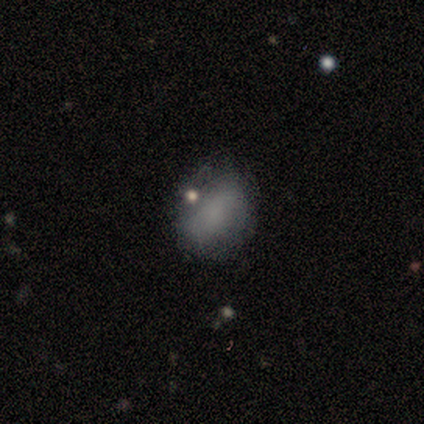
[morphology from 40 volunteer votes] smooth 68%, featured or disk 20%, star or artifact 12%. Down the decision tree: how rounded — in between (67%); merging — none (74%).